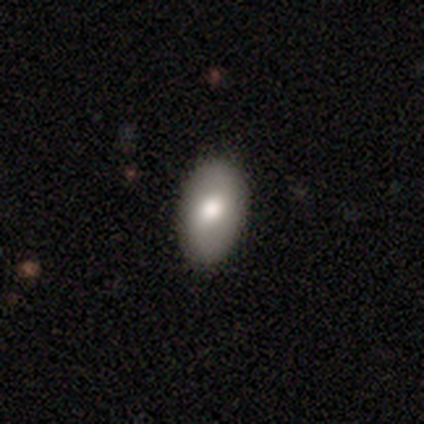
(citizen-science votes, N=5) Q: Smooth or featured?
A: smooth (60%); runner-up: star or artifact (40%)
Q: How rounded?
A: in between (100%)
Q: Merging?
A: none (100%)